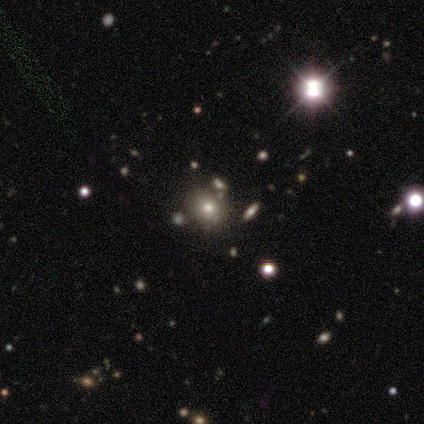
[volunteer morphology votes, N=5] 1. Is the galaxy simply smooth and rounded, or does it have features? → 40% smooth (tied), 40% featured or disk (tied), 20% star or artifact.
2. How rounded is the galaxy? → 100% round, 0% in between, 0% cigar-shaped.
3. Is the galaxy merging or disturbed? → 75% none, 25% minor disturbance, 0% major disturbance, 0% merger.